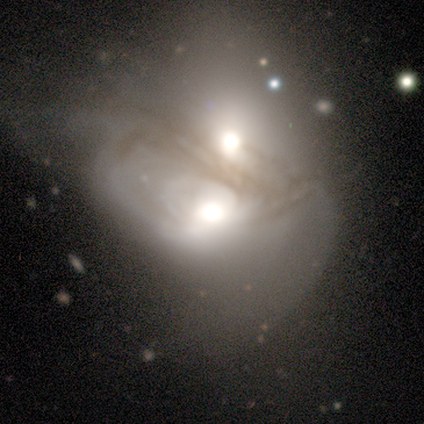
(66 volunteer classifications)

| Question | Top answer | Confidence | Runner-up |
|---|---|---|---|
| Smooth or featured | featured or disk | 79% | smooth (12%) |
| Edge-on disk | no | 98% | yes (2%) |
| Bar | no | 76% | strong (12%) |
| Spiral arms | no | 65% | yes (35%) |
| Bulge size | large | 41% | moderate (35%) |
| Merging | merger | 87% | none (8%) |